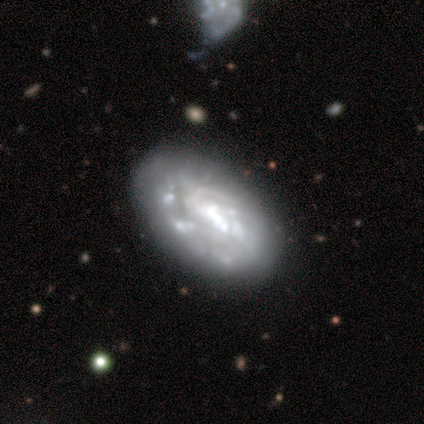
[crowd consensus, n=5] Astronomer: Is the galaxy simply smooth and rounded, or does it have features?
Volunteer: featured or disk — 60% (runner-up: smooth, 40%).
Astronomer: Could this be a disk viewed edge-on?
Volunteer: no — 100%.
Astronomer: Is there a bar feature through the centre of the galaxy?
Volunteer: no — 100%.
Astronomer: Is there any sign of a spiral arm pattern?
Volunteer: no — 67%.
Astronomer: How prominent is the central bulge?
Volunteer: none — 100%.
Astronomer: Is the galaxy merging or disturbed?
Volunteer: none — 100%.